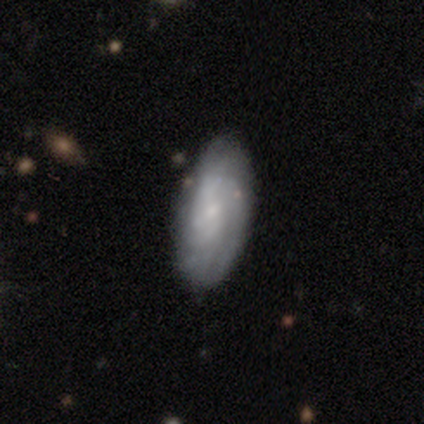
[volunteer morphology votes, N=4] A smooth galaxy with no disk features (50%, tied with featured or disk) that is in between round and cigar-shaped (100%). Merging: none (75%).